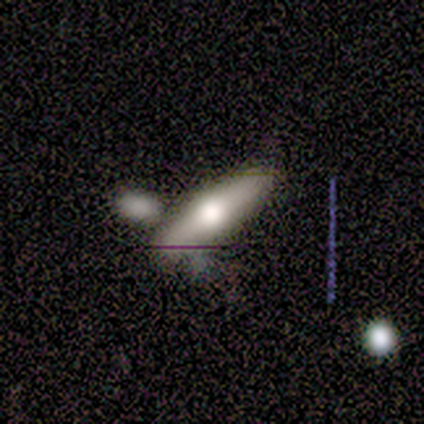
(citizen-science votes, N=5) smooth-or-featured: featured or disk: 80% | smooth: 20% | star or artifact: 0%
  disk-edge-on: yes: 75% | no: 25%
    edge-on-bulge: rounded: 100% | boxy: 0% | none: 0%
  merging: minor disturbance: 60% | none: 40% | major disturbance: 0% | merger: 0%